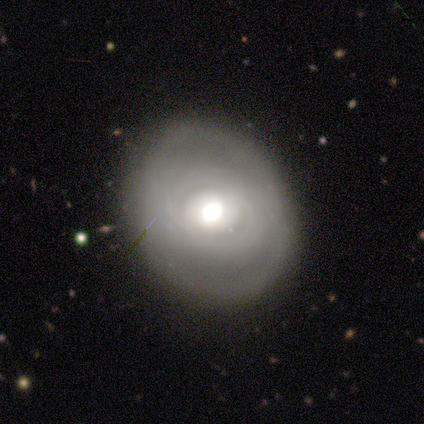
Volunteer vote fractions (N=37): This is likely a featured or disk galaxy (65%). It is clearly not viewed edge-on (92%). Bar: likely no (77%). Spiral arm pattern: likely yes (64%). Spiral arm count: likely can't tell (64%). Spiral winding: clearly tight (100%). Central bulge: likely moderate (73%). Merging: likely none (71%).